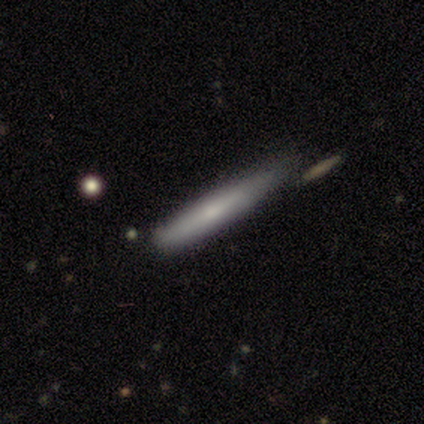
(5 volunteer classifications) featured or disk 60%, smooth 40%, star or artifact 0%. Down the decision tree: edge-on disk — yes (100%); edge-on bulge — none (67%); merging — none (60%).